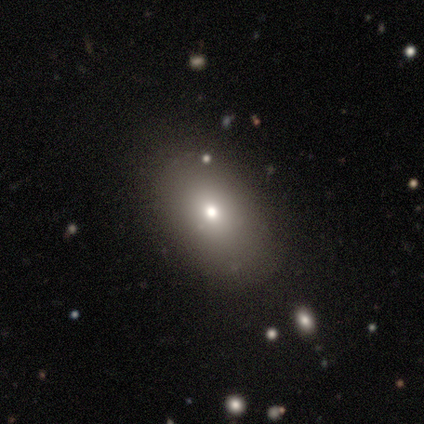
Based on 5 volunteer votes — Smooth or featured? 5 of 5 (100%) said smooth. How rounded? 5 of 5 (100%) said in between. Merging? 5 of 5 (100%) said none.